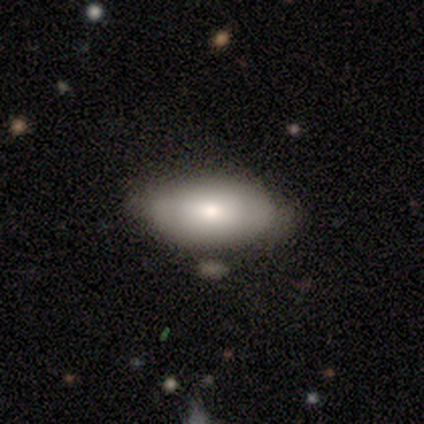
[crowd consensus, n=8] smooth 62%, featured or disk 38%, star or artifact 0%. Down the decision tree: how rounded — in between (100%); merging — none (75%).